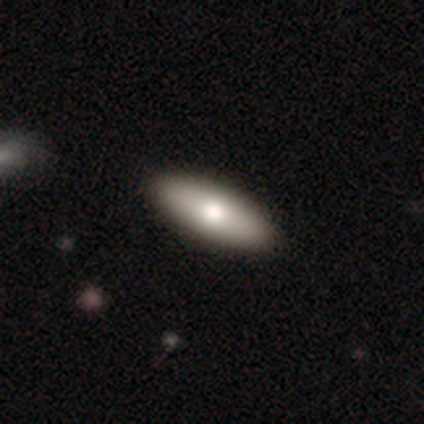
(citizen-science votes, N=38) A smooth galaxy with no disk features (74%) that is in between round and cigar-shaped (75%).

Vote fractions:
- Smooth or featured? smooth: 74% / featured or disk: 16% / star or artifact: 11%
- How rounded? in between: 75% / cigar-shaped: 25% / round: 0%
- Merging? none: 88% / minor disturbance: 12% / major disturbance: 0% / merger: 0%